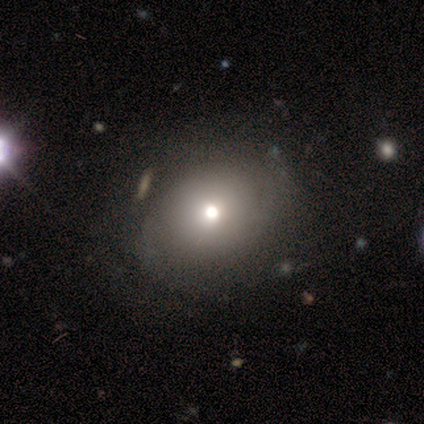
smooth_or_featured: smooth (p=0.80) [alt: featured or disk p=0.20]
how_rounded: round (p=0.50) [tied with: in between p=0.50]
merging: none (p=0.80) [alt: major disturbance p=0.20]